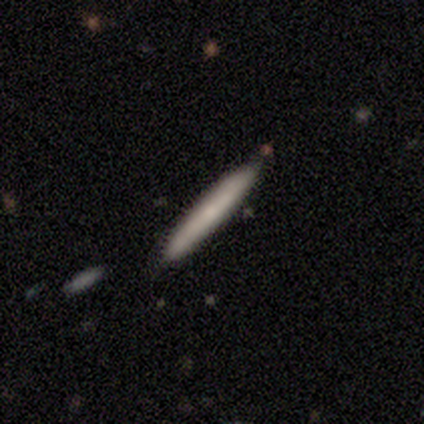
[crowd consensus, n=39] smooth_or_featured: featured or disk (p=0.49) [alt: smooth p=0.46]
disk_edge_on: yes (p=0.95) [alt: no p=0.05]
edge_on_bulge: none (p=0.72) [alt: rounded p=0.28]
merging: none (p=0.92) [alt: major disturbance p=0.05]